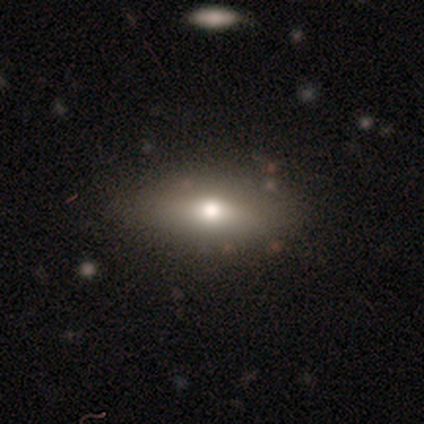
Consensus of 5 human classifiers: Morphology: type=smooth (80%); roundness=in between (75%); merging=none (60%).